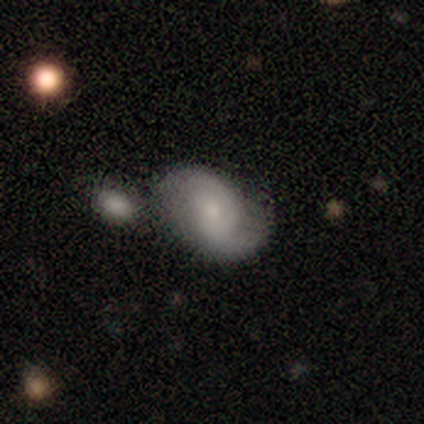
smooth-or-featured: featured or disk: 74% | smooth: 23% | star or artifact: 3%
  disk-edge-on: no: 97% | yes: 3%
    bar: no: 68% | weak: 29% | strong: 4%
    has-spiral-arms: yes: 96% | no: 4%
      spiral-winding: loose: 59% | medium: 26% | tight: 15%
      spiral-arm-count: 2: 81% | 1: 11% | can't tell: 7% | 3: 0% | 4: 0% | more than 4: 0%
    bulge-size: small: 50% | moderate: 21% | large: 14% | none: 14% | dominant: 0%
  merging: none: 55% | minor disturbance: 26% | merger: 11% | major disturbance: 8%